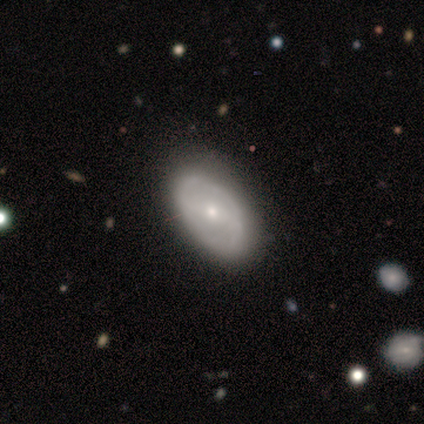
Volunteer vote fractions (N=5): Smooth or featured? featured or disk (80%)
Edge-on disk? no (100%)
Bar? weak (100%)
Spiral arms? yes (50%, tied with no)
Spiral winding? medium (50%, tied with loose)
Spiral arm count? 2 (50%, tied with 4)
Bulge size? small (75%)
Merging? none (100%)